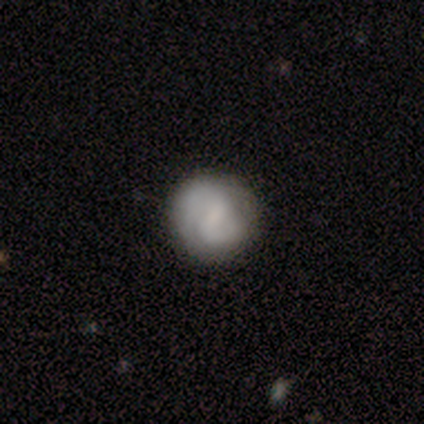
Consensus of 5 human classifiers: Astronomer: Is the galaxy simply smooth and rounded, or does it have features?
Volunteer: featured or disk — 60% (runner-up: smooth, 40%).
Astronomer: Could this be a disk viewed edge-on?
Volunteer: no — 100%.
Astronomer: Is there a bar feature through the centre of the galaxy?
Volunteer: weak — 67%.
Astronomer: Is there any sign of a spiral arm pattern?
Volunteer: yes — 100%.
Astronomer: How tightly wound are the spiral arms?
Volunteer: medium — 67%.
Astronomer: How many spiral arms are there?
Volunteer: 2 — 100%.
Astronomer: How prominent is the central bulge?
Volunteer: small — 67%.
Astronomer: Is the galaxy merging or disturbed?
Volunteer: none — 80%.